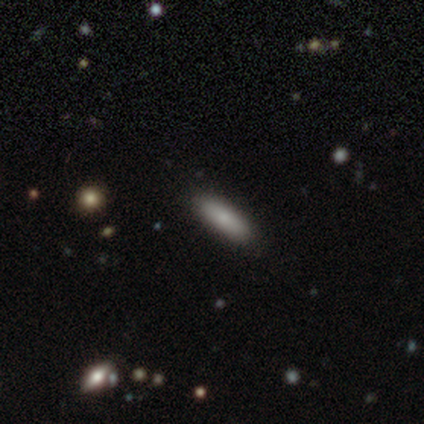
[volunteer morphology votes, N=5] This appears to be a smooth galaxy with no disk features (80%) that is cigar-shaped (75%). Merging: none (80%).